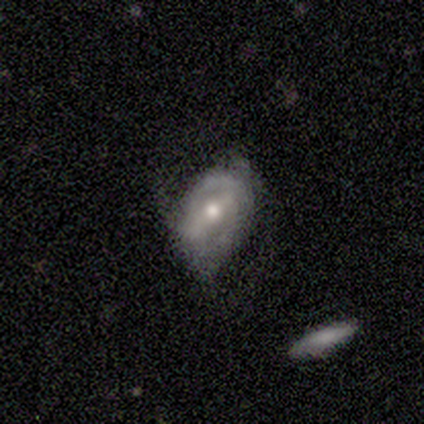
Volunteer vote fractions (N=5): This appears to be a featured or disk galaxy (80%) viewed edge-on (50%, tied with no) with a rounded central bulge (100%). Merging: none (80%).